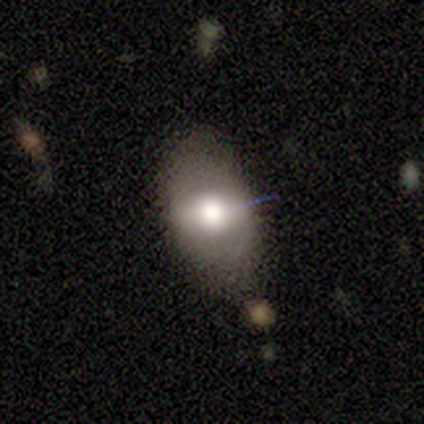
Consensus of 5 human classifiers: Morphology: type=smooth (60%); roundness=in between (100%); merging=none (75%).